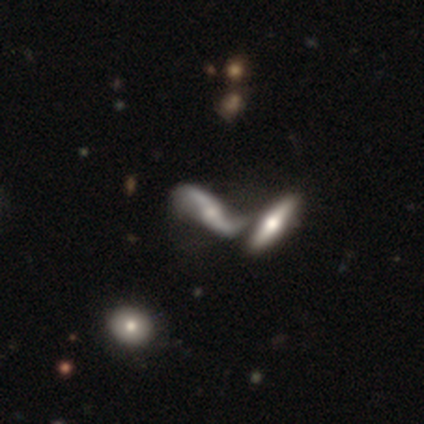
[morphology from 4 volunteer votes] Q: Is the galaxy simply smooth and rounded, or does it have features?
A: featured or disk — 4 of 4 (100%).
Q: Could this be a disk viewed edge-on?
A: no — 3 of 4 (75%).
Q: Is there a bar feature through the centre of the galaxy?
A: strong — 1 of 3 (33%, tied with weak and no).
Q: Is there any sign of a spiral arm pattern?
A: yes — 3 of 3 (100%).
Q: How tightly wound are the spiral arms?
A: loose — 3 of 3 (100%).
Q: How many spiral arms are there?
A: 2 — 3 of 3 (100%).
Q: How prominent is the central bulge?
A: none — 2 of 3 (67%).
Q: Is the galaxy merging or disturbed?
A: merger — 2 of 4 (50%).